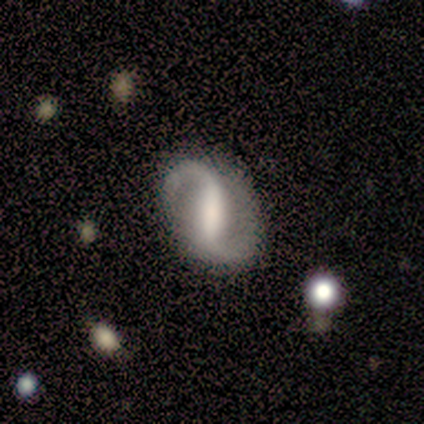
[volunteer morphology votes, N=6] Smooth or featured: featured or disk — 100%
Edge-on disk: no — 100%
Bar: strong — 83% (weak — 17%)
Spiral arms: yes — 83% (no — 17%)
Spiral winding: loose — 60% (medium — 40%)
Spiral arm count: 2 — 100%
Bulge size: large — 33% (tied with moderate — 33%)
Merging: none — 100%